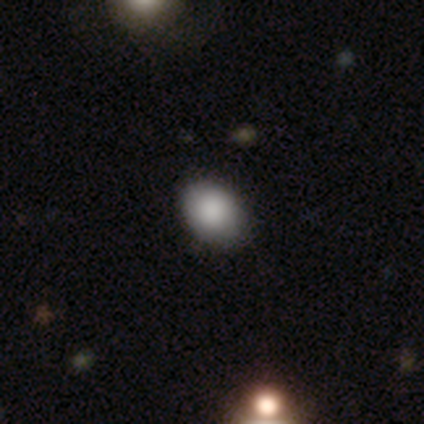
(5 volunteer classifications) Smooth or featured? smooth (80%)
How rounded? in between (100%)
Merging? none (80%)